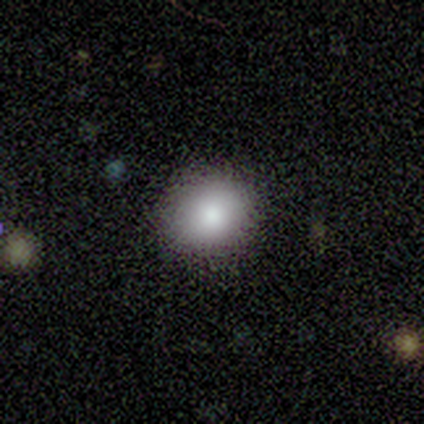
Smooth or featured?
  - smooth: 100% *
  - featured or disk: 0%
  - star or artifact: 0%
How rounded?
  - round: 100% *
  - in between: 0%
  - cigar-shaped: 0%
Merging?
  - none: 100% *
  - minor disturbance: 0%
  - major disturbance: 0%
  - merger: 0%